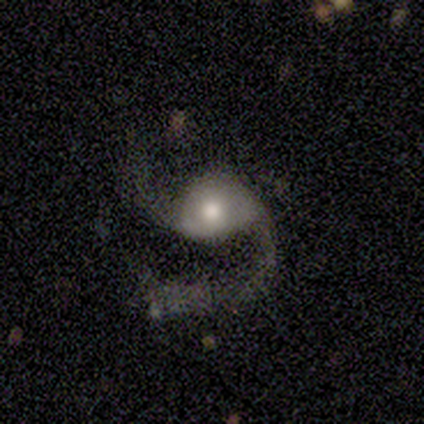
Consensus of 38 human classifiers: Smooth or featured?
  - featured or disk: 87% *
  - smooth: 11%
  - star or artifact: 3%
Edge-on disk?
  - no: 97% *
  - yes: 3%
Bar?
  - no: 59% *
  - weak: 34%
  - strong: 6%
Spiral arms?
  - yes: 97% *
  - no: 3%
Spiral winding?
  - loose: 68% *
  - medium: 29%
  - tight: 3%
Spiral arm count?
  - 2: 94% *
  - 1: 6%
  - 3: 0%
  - 4: 0%
  - more than 4: 0%
  - can't tell: 0%
Bulge size?
  - moderate: 66% *
  - large: 25%
  - small: 9%
  - dominant: 0%
  - none: 0%
Merging?
  - none: 43% *
  - major disturbance: 41%
  - minor disturbance: 14%
  - merger: 3%